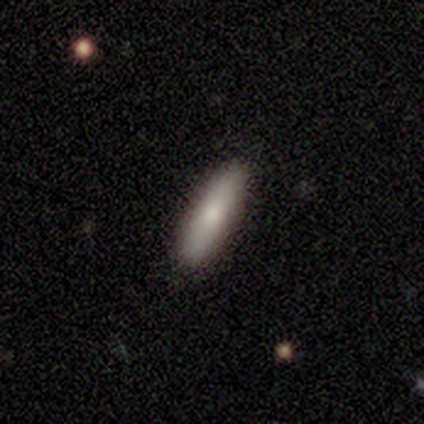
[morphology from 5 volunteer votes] smooth-or-featured: smooth: 100% | featured or disk: 0% | star or artifact: 0%
  how-rounded: cigar-shaped: 60% | in between: 40% | round: 0%
  merging: none: 80% | minor disturbance: 20% | major disturbance: 0% | merger: 0%